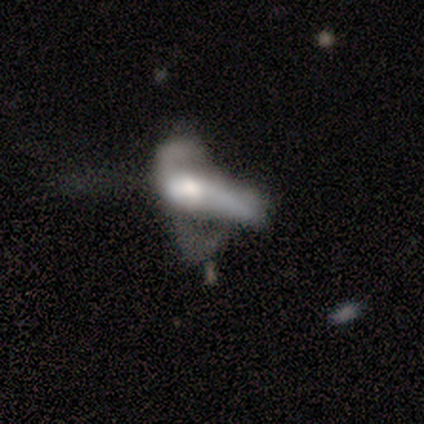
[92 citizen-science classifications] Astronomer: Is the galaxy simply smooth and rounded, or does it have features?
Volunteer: featured or disk — 54% (runner-up: smooth, 39%).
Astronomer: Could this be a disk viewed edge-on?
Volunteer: no — 82%.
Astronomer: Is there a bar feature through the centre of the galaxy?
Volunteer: no — 83%.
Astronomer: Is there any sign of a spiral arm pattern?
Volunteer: no — 83%.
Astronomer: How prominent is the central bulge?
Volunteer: moderate — 59%.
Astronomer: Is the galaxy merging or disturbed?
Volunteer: major disturbance — 41% (runner-up: merger, 38%).